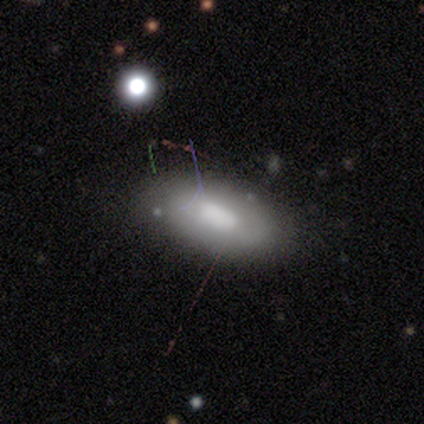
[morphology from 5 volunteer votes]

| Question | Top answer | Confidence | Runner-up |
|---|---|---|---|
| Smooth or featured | smooth | 60% | featured or disk (40%) |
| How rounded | in between | 100% | — |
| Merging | none | 60% | minor disturbance (40%) |